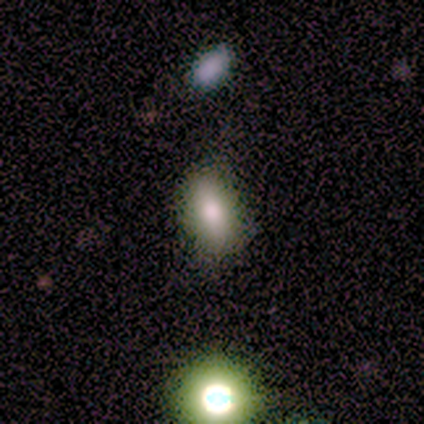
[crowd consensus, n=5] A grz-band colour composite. It shows a smooth galaxy with no disk features (40%, tied with featured or disk) that is in between round and cigar-shaped (100%). Merging: none (100%).